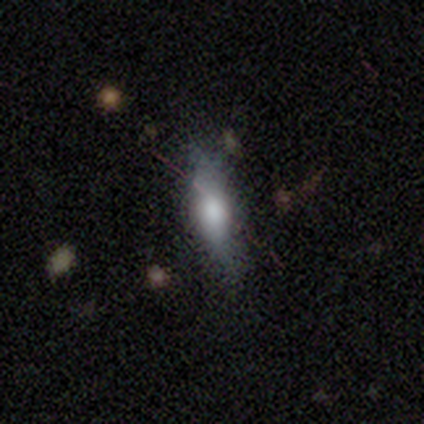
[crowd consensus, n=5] smooth-or-featured: smooth: 60% | featured or disk: 40% | star or artifact: 0%
  how-rounded: in between: 67% | cigar-shaped: 33% | round: 0%
  merging: minor disturbance: 60% | none: 40% | major disturbance: 0% | merger: 0%